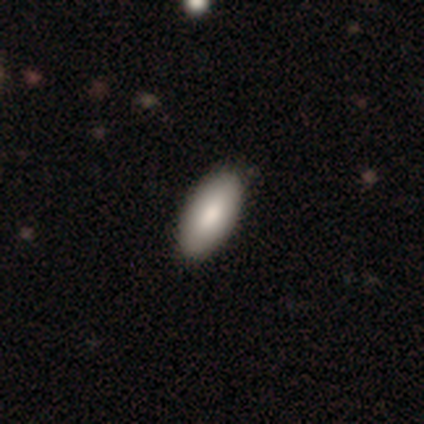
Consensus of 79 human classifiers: This appears to be a smooth galaxy with no disk features (90%) that is in between round and cigar-shaped (92%). Merging: none (41%).